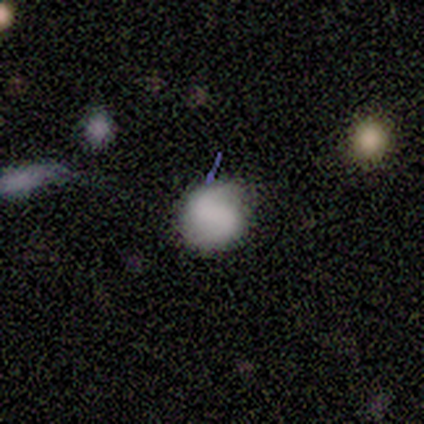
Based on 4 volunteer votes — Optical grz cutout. It shows a smooth galaxy with no disk features (75%) that is round (100%). Merging: none (100%).